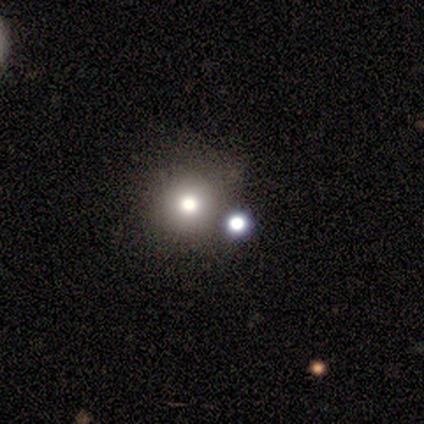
Smooth or featured: smooth — 71% (star or artifact — 16%)
How rounded: round — 89% (in between — 11%)
Merging: none — 56% (merger — 28%)